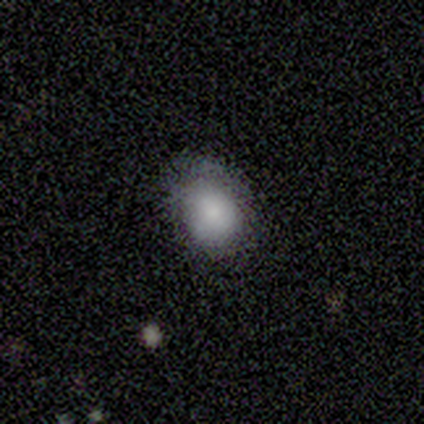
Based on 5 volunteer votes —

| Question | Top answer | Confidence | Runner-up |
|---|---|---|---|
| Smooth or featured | smooth | 80% | featured or disk (20%) |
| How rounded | in between | 75% | round (25%) |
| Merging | none | 80% | major disturbance (20%) |